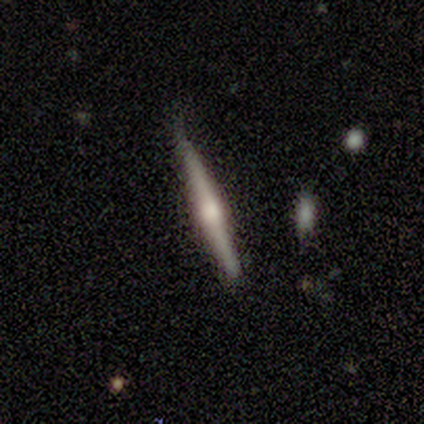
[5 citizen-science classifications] Q: Smooth or featured?
A: featured or disk (80%); runner-up: smooth (20%)
Q: Edge-on disk?
A: yes (100%)
Q: Edge-on bulge?
A: rounded (100%)
Q: Merging?
A: none (100%)